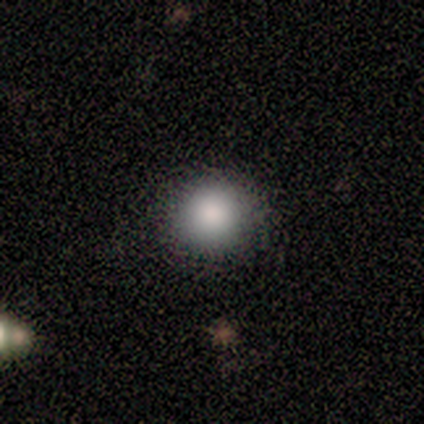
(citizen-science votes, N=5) Q: Smooth or featured?
A: smooth (80%); runner-up: star or artifact (20%)
Q: How rounded?
A: round (100%)
Q: Merging?
A: none (100%)